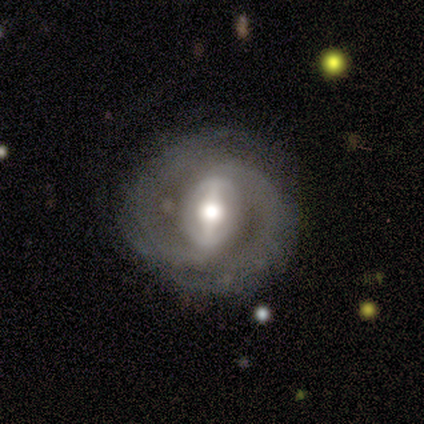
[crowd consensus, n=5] Smooth or featured: featured or disk — 100%
Edge-on disk: no — 100%
Bar: strong — 100%
Spiral arms: yes — 60% (no — 40%)
Spiral winding: tight — 67% (loose — 33%)
Spiral arm count: 2 — 100%
Bulge size: large — 80% (moderate — 20%)
Merging: none — 100%